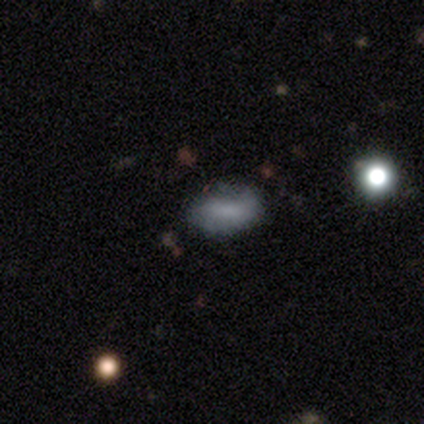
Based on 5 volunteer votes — smooth 80%, featured or disk 20%, star or artifact 0%. Down the decision tree: how rounded — in between (100%); merging — none (80%).